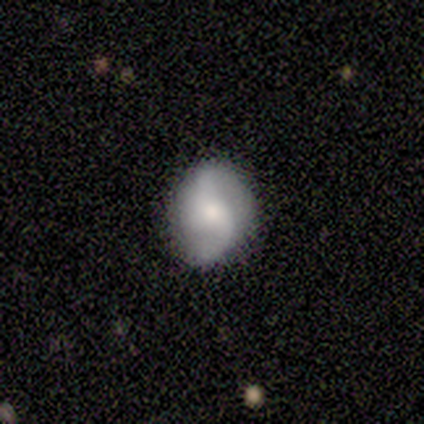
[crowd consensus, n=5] Smooth or featured? featured or disk (100%)
Edge-on disk? no (100%)
Bar? weak (80%)
Spiral arms? yes (100%)
Spiral winding? loose (80%)
Spiral arm count? 2 (100%)
Bulge size? large (40%, tied with small)
Merging? none (80%)